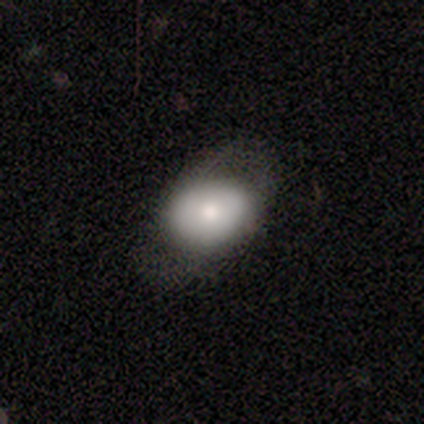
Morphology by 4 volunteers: Q: Smooth or featured?
A: smooth (100%)
Q: How rounded?
A: in between (100%)
Q: Merging?
A: minor disturbance (50%); runner-up: none (25%)